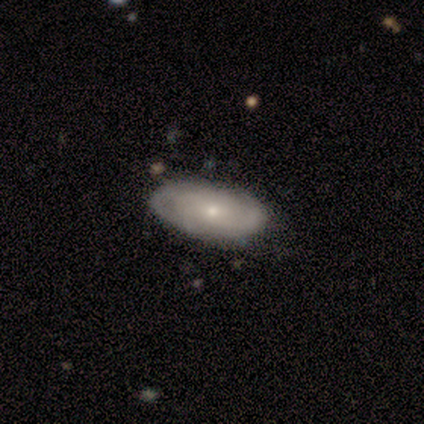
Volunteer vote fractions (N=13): smooth 54%, featured or disk 38%, star or artifact 8%. Down the decision tree: how rounded — in between (100%); merging — none (83%).